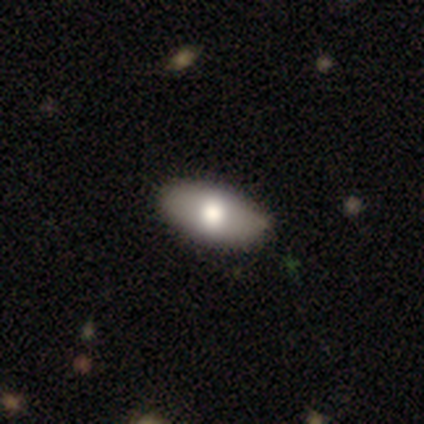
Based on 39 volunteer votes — Volunteers were most divided on "smooth or featured": smooth: 74%, featured or disk: 23%, star or artifact: 3%. More confident: how rounded — in between (90%); merging — none (61%).